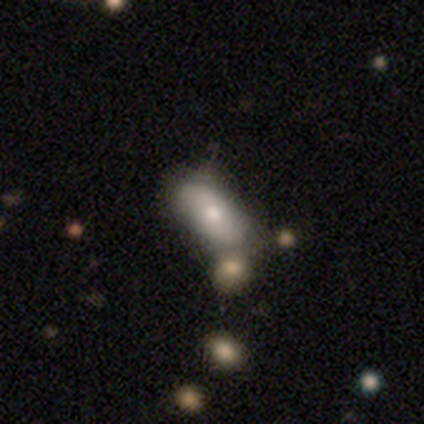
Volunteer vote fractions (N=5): This is clearly a smooth galaxy (100%). How rounded: clearly in between (80%). Merging: likely none (60%).